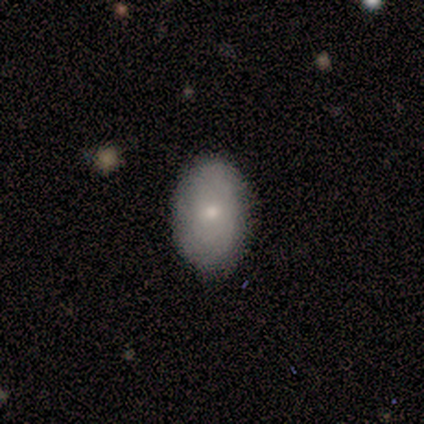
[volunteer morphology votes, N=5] Smooth or featured? smooth (100%)
How rounded? in between (80%)
Merging? none (100%)